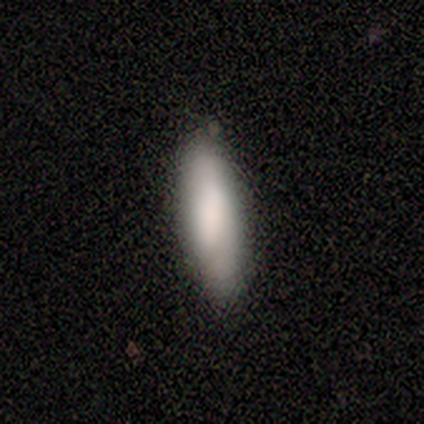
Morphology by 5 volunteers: Smooth or featured?
  - smooth: 100% *
  - featured or disk: 0%
  - star or artifact: 0%
How rounded?
  - in between: 60% *
  - cigar-shaped: 40%
  - round: 0%
Merging?
  - none: 80% *
  - major disturbance: 20%
  - minor disturbance: 0%
  - merger: 0%